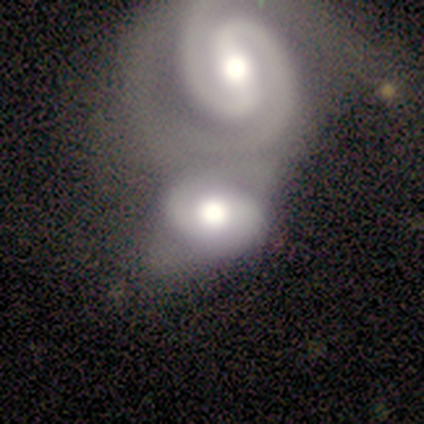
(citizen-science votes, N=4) Smooth or featured: featured or disk — 100%
Edge-on disk: no — 100%
Bar: strong — 50% (weak — 25%)
Spiral arms: yes — 100%
Spiral winding: tight — 75% (medium — 25%)
Spiral arm count: 2 — 100%
Bulge size: moderate — 75% (large — 25%)
Merging: merger — 100%